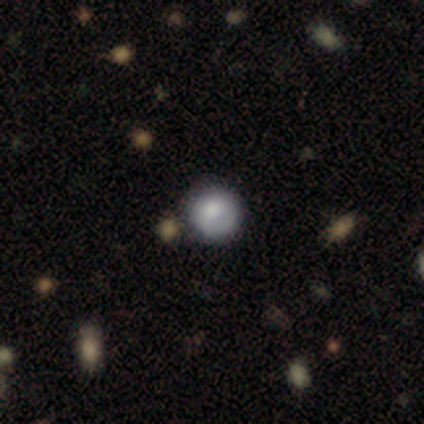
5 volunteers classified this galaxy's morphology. Volunteers were most divided on "merging": none: 60%, minor disturbance: 20%, merger: 20%, major disturbance: 0%. More confident: smooth or featured — smooth (80%); how rounded — round (75%).